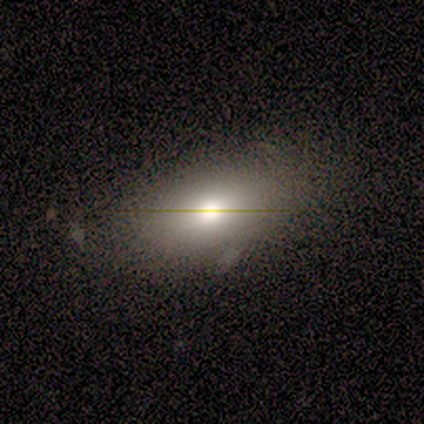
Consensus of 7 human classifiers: Smooth or featured?
  - smooth: 71% *
  - featured or disk: 14%
  - star or artifact: 14%
How rounded?
  - in between: 100% *
  - round: 0%
  - cigar-shaped: 0%
Merging?
  - none: 83% *
  - minor disturbance: 17%
  - major disturbance: 0%
  - merger: 0%